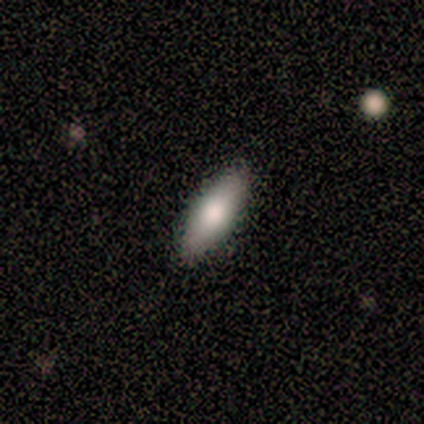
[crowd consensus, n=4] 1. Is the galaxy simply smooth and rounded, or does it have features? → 100% smooth, 0% featured or disk, 0% star or artifact.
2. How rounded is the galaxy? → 100% in between, 0% round, 0% cigar-shaped.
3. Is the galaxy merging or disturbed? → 100% none, 0% minor disturbance, 0% major disturbance, 0% merger.